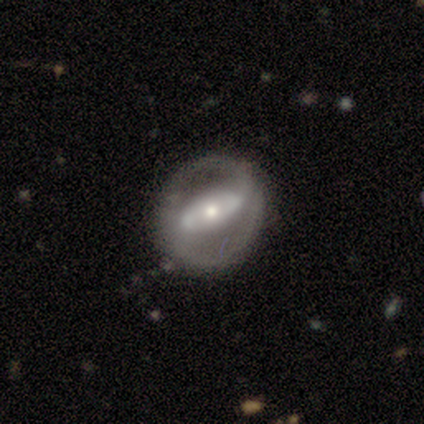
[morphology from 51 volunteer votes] This is likely a featured or disk galaxy (78%). It is clearly not viewed edge-on (95%). Bar: possibly no (47%). Spiral arm pattern: possibly yes (55%). Spiral arm count: likely 2 (76%). Spiral winding: likely tight (62%). Central bulge: possibly moderate (58%). Merging: likely none (76%).